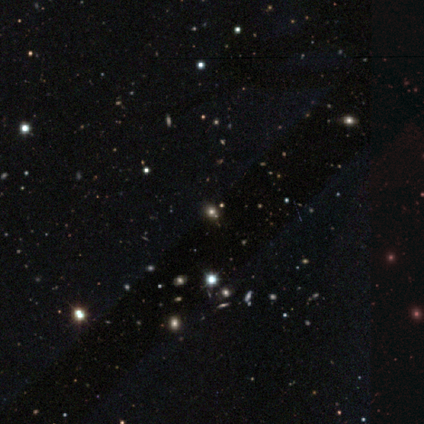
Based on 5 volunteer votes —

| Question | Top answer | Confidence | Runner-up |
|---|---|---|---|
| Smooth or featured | star or artifact | 60% | smooth (40%) |